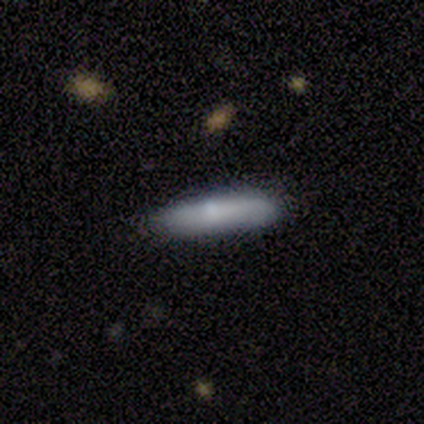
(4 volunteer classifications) Smooth or featured: smooth — 50% (featured or disk — 25%)
How rounded: cigar-shaped — 100%
Merging: none — 100%